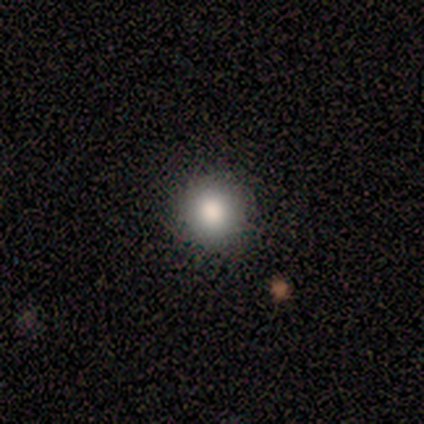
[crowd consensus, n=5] smooth-or-featured: smooth: 100% | featured or disk: 0% | star or artifact: 0%
  how-rounded: round: 100% | in between: 0% | cigar-shaped: 0%
  merging: none: 100% | minor disturbance: 0% | major disturbance: 0% | merger: 0%